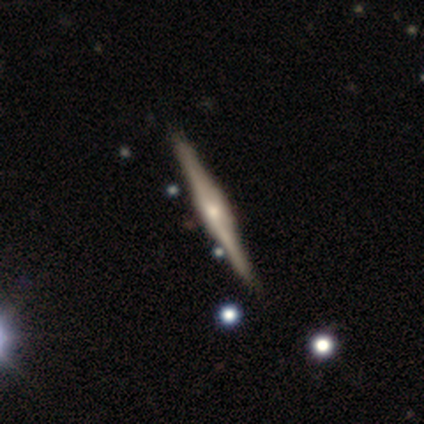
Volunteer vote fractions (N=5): Morphology: type=featured or disk (80%); edge-on=yes (100%); edge-on bulge=rounded (75%); merging=none (80%).